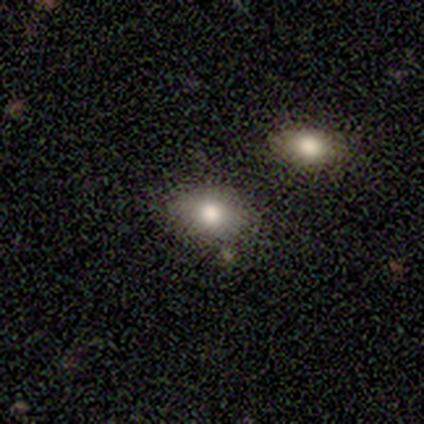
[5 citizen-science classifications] Morphology: type=smooth (80%); roundness=round (50%, tied with in between); merging=none (100%).